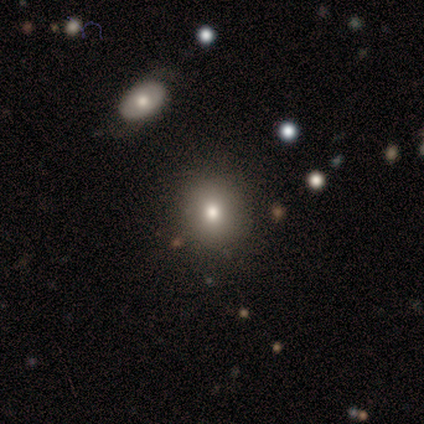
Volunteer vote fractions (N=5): A smooth galaxy with no disk features (80%) that is round (100%). Merging: none (100%).